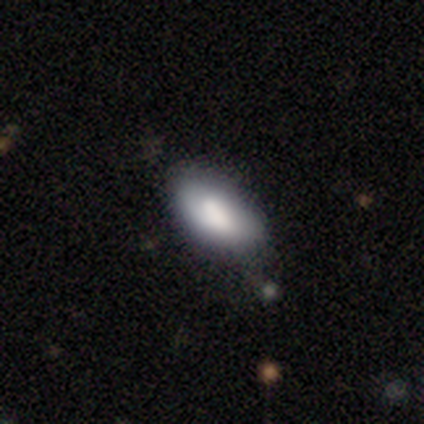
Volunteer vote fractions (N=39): smooth-or-featured: smooth: 82% | featured or disk: 10% | star or artifact: 8%
  how-rounded: in between: 94% | cigar-shaped: 6% | round: 0%
  merging: none: 67% | minor disturbance: 31% | merger: 3% | major disturbance: 0%